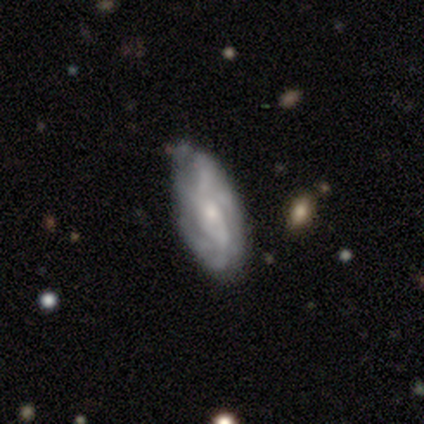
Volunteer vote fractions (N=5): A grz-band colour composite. It shows a featured or disk galaxy (100%) with no bar (100%), tight (50%) spiral arms (100%) and a small central bulge (100%). Merging: none (100%).